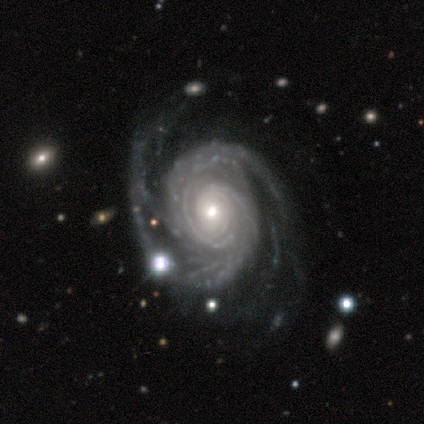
featured or disk 80%, star or artifact 20%, smooth 0%. Down the decision tree: edge-on disk — no (100%); bar — no (50%); spiral arms — yes (100%); spiral arm count — 3 (50%); spiral winding — tight (75%); bulge size — moderate (100%); merging — none (75%).